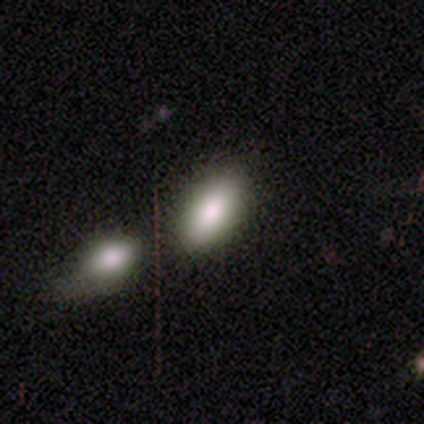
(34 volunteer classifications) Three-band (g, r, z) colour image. It shows a smooth galaxy with no disk features (79%) that is in between round and cigar-shaped (81%). Merging: merger (66%).